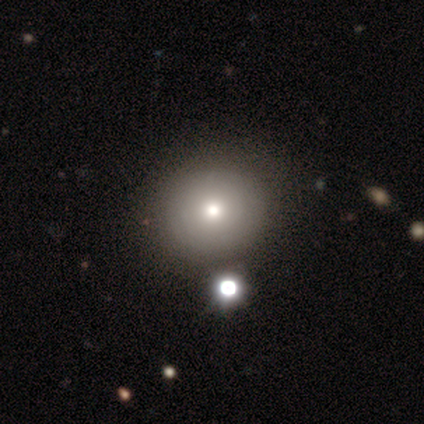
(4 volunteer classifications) smooth-or-featured: smooth: 50% | featured or disk: 25% | star or artifact: 25%
  how-rounded: round: 100% | in between: 0% | cigar-shaped: 0%
  merging: none: 100% | minor disturbance: 0% | major disturbance: 0% | merger: 0%